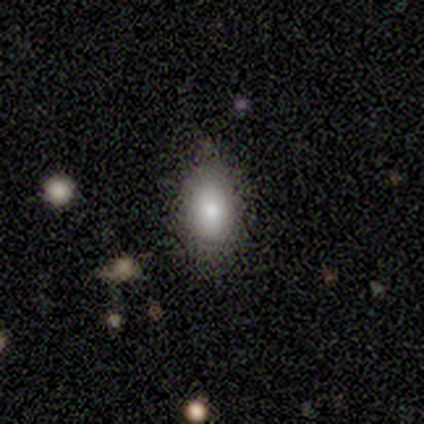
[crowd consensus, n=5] This appears to be a smooth galaxy with no disk features (100%) that is in between round and cigar-shaped (80%). Merging: none (80%).